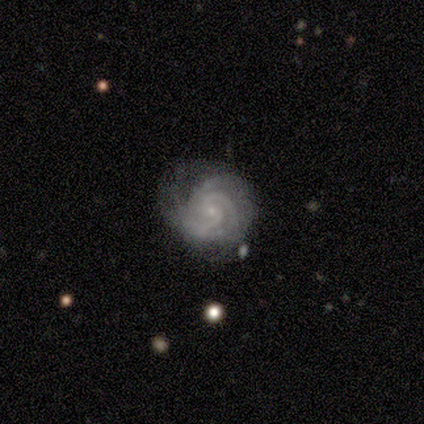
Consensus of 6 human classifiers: A featured or disk galaxy (100%) with no bar (83%), 3 (50%) tight (100%) spiral arms (100%) and a small central bulge (100%). Merging: none (83%).